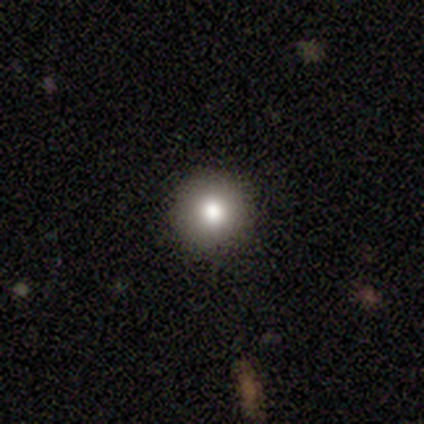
Q: Smooth or featured?
A: smooth (80%); runner-up: star or artifact (20%)
Q: How rounded?
A: round (100%)
Q: Merging?
A: none (100%)